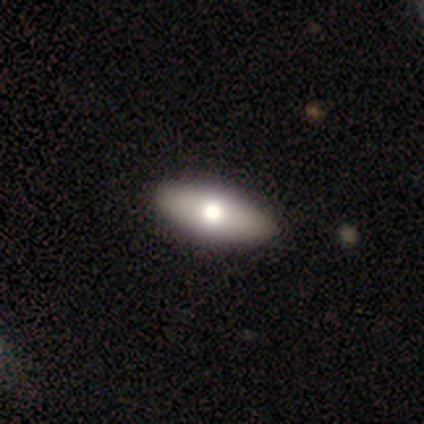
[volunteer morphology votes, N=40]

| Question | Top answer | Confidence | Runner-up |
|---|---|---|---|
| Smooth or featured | smooth | 62% | featured or disk (32%) |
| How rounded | in between | 72% | cigar-shaped (16%) |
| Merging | none | 76% | minor disturbance (5%) |